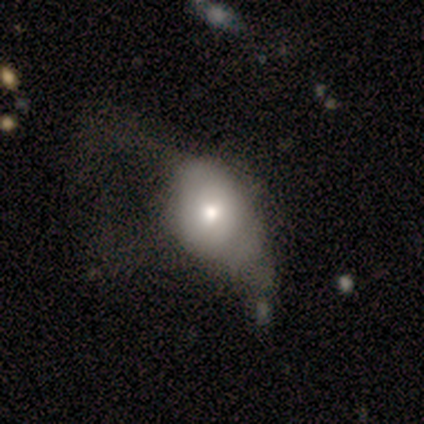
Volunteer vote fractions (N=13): Smooth or featured? 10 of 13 (77%) said smooth. How rounded? 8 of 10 (80%) said in between. Merging? 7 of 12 (58%) said major disturbance.